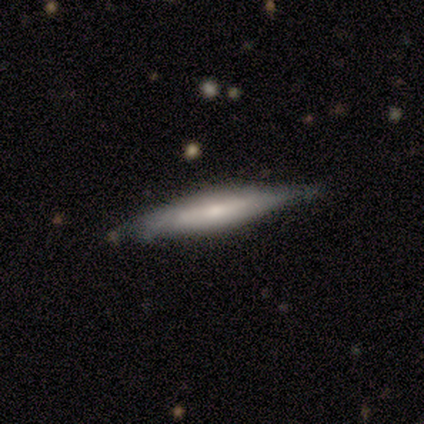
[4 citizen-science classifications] Volunteers were most divided on "smooth or featured" (2-way tie): smooth: 50%, featured or disk: 50%, star or artifact: 0%. More confident: how rounded — cigar-shaped (100%); merging — none (75%).